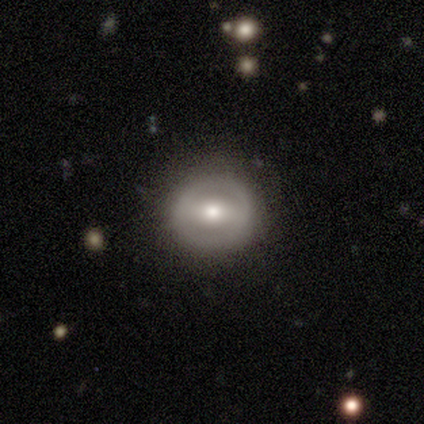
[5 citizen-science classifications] A featured or disk galaxy (60%) with a strong bar (67%), no spiral arms (100%) and a moderate central bulge (67%). Merging: none (100%).